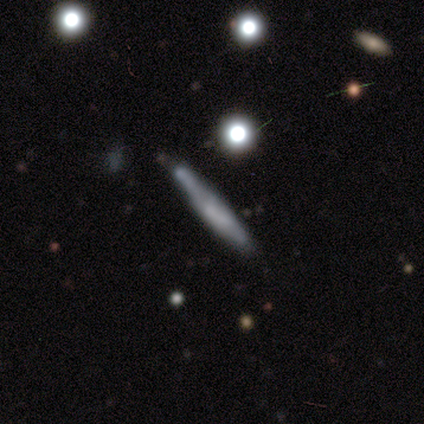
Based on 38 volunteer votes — smooth-or-featured: smooth: 42% (tied) | featured or disk: 42% (tied) | star or artifact: 16%
  how-rounded: cigar-shaped: 81% | round: 12% | in between: 6%
  merging: none: 47% | minor disturbance: 28% | merger: 16% | major disturbance: 9%